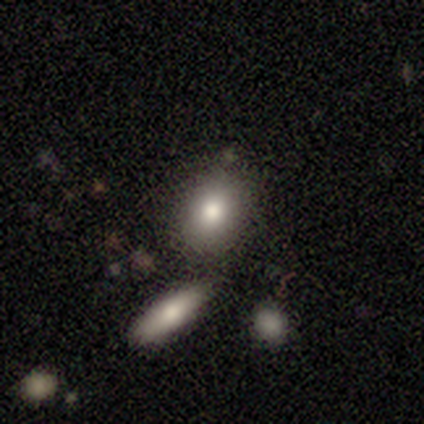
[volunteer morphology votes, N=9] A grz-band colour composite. It shows a smooth galaxy with no disk features (78%) that is round (43%, tied with in between). Merging: none (56%).